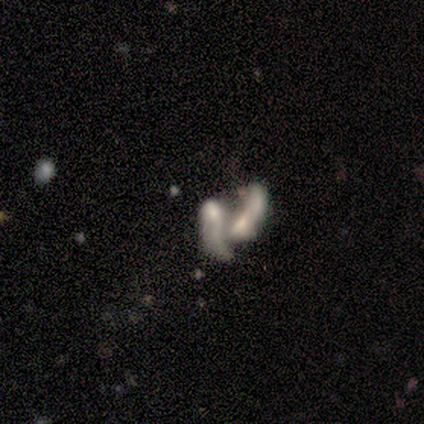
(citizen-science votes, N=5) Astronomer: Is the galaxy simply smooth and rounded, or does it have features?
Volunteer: featured or disk — 60% (runner-up: smooth, 40%).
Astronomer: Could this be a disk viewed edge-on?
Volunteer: no — 100%.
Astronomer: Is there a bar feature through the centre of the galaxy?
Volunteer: no — 100%.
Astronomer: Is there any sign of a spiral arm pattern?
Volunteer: no — 67%.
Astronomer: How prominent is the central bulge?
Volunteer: large — 33%, tied with moderate and none at 33%.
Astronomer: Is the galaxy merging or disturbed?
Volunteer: merger — 100%.